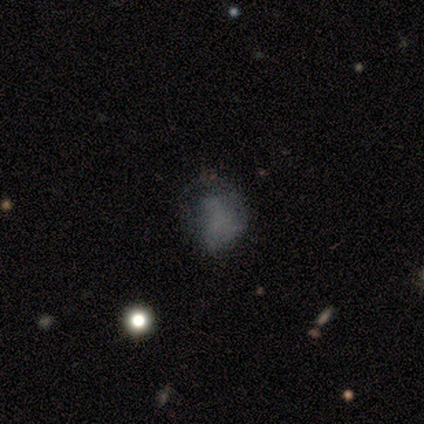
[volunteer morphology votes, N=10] Overall: smooth (60%; featured or disk 30%). How rounded: round (83%). Merging: none (56%; minor disturbance 22%).